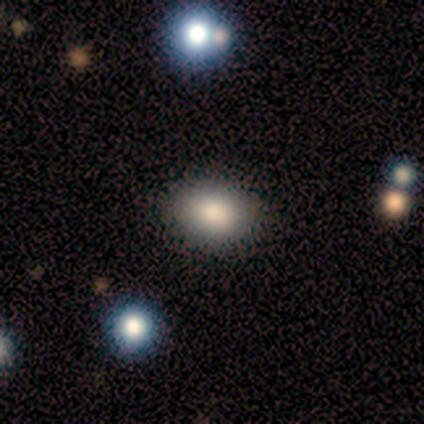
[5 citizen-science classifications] Smooth or featured: smooth — 80% (featured or disk — 20%)
How rounded: in between — 75% (round — 25%)
Merging: none — 80% (minor disturbance — 20%)